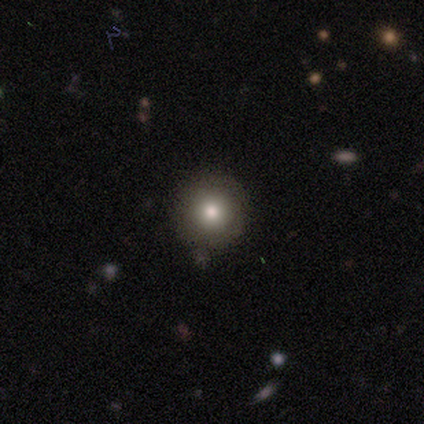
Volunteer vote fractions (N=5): Morphology: type=smooth (80%); roundness=round (100%); merging=none (80%).